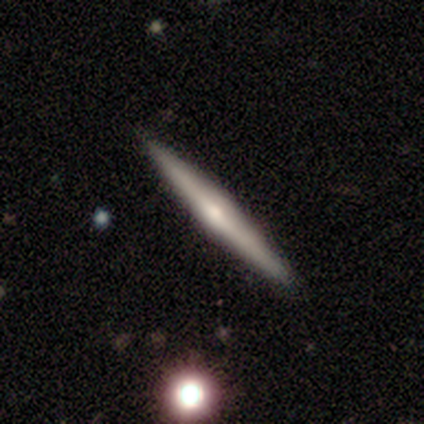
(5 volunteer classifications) A featured or disk galaxy (100%) viewed edge-on (100%) with a rounded central bulge (80%). Merging: none (100%).